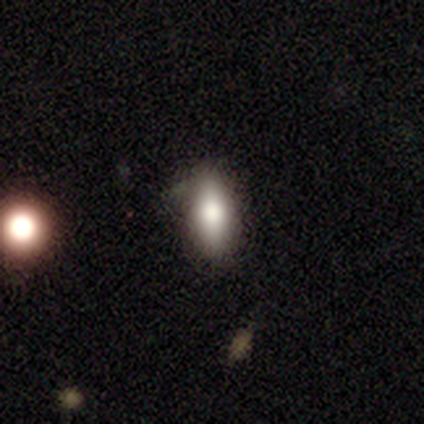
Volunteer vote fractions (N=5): A smooth galaxy with no disk features (40%, tied with star or artifact) that is in between round and cigar-shaped (100%). Merging: none (67%).